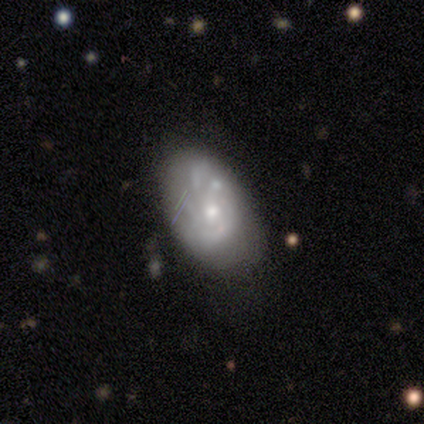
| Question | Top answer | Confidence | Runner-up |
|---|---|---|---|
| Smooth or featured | featured or disk | 75% | smooth (25%) |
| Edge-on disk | no | 100% | — |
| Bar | no | 67% | weak (33%) |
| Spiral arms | yes | 100% | — |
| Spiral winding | tight | 67% | medium (33%) |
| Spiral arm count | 4 | 67% | more than 4 (33%) |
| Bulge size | moderate | 67% | small (33%) |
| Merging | none | 50% | minor disturbance (25%) |